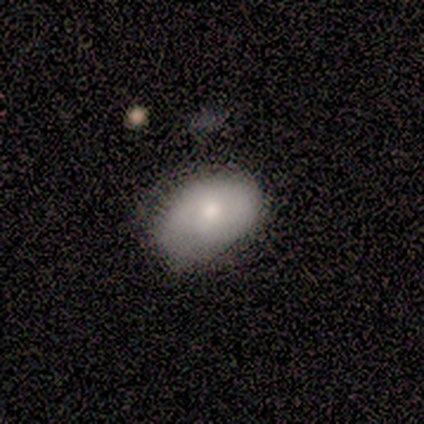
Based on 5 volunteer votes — Smooth or featured: smooth — 60% (featured or disk — 40%)
How rounded: in between — 100%
Merging: none — 80% (minor disturbance — 20%)